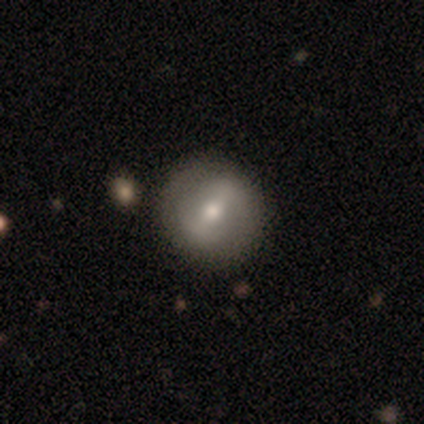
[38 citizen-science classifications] Smooth or featured? 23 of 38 (61%) said featured or disk. Edge-on disk? 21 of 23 (91%) said no. Bar? 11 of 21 (52%) said strong. Spiral arms? 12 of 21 (57%) said no. Bulge size? 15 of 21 (71%) said moderate. Merging? 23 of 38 (61%) said none.